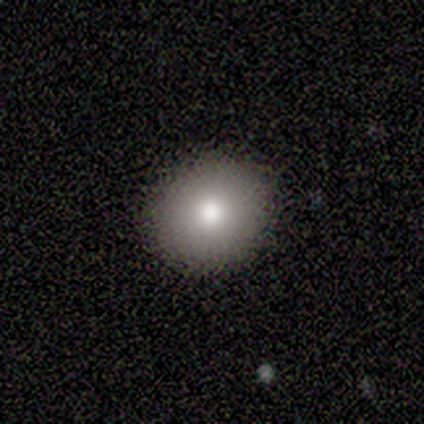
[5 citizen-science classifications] Q: Smooth or featured?
A: smooth (100%)
Q: How rounded?
A: round (80%); runner-up: in between (20%)
Q: Merging?
A: none (100%)